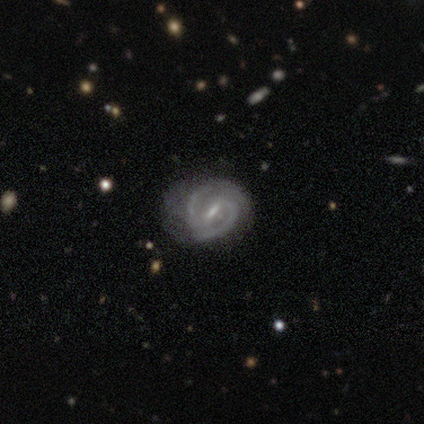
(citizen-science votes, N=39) A featured or disk galaxy (90%) with a strong bar (48%), 2 (88%) medium (59%) spiral arms (97%) and a small central bulge (48%). Merging: none (59%).